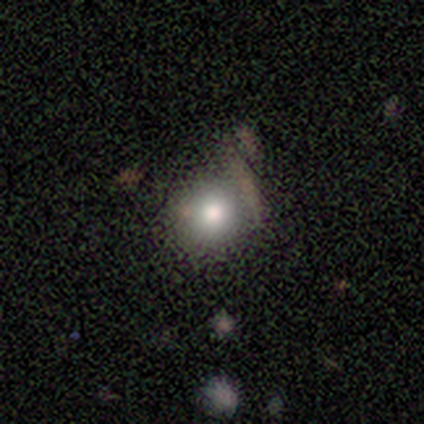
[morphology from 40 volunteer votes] Volunteers were most divided on "merging": none: 56%, minor disturbance: 31%, merger: 11%, major disturbance: 3%. More confident: how rounded — round (88%); smooth or featured — smooth (80%).